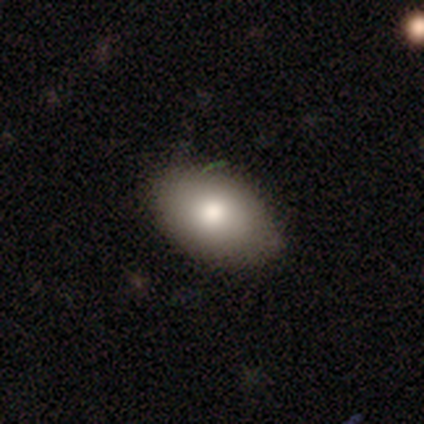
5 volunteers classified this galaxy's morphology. Q: Smooth or featured?
A: smooth (80%); runner-up: featured or disk (20%)
Q: How rounded?
A: in between (75%); runner-up: round (25%)
Q: Merging?
A: none (60%); runner-up: minor disturbance (40%)